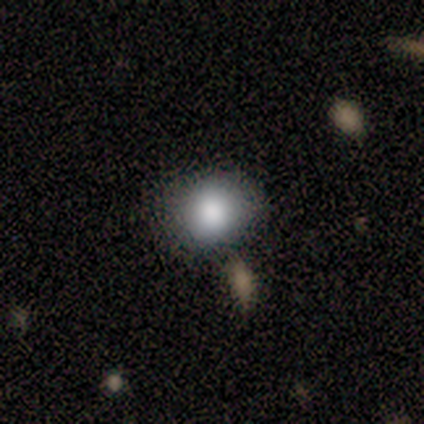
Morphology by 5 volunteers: A smooth galaxy with no disk features (80%) that is round (75%).

Vote fractions:
- Smooth or featured? smooth: 80% / star or artifact: 20% / featured or disk: 0%
- How rounded? round: 75% / in between: 25% / cigar-shaped: 0%
- Merging? none: 75% / minor disturbance: 25% / major disturbance: 0% / merger: 0%